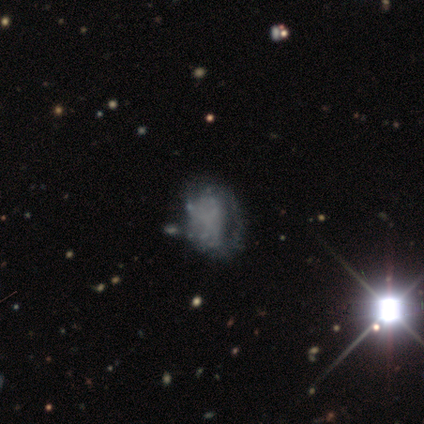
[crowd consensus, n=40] Morphology: type=featured or disk (62%); edge-on=no (100%); bar=no (92%); spiral arms=no (72%); bulge=none (100%); merging=minor disturbance (29%).